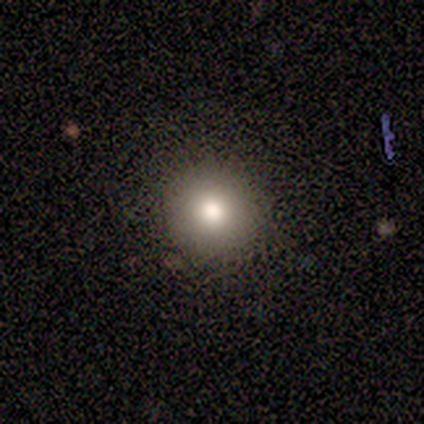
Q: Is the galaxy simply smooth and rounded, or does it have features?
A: smooth — 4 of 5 (80%).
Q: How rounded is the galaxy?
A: round — 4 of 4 (100%).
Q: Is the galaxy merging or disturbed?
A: none — 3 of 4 (75%).